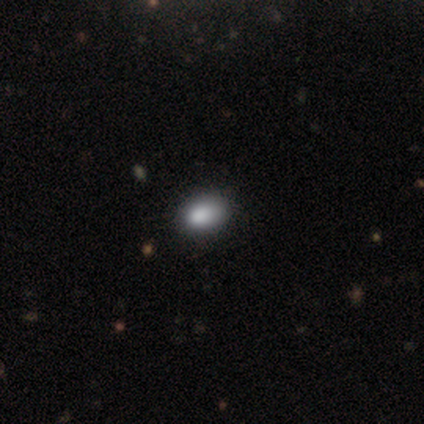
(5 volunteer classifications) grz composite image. It shows a smooth galaxy with no disk features (100%) that is round (60%). Merging: none (40%, tied with minor disturbance).